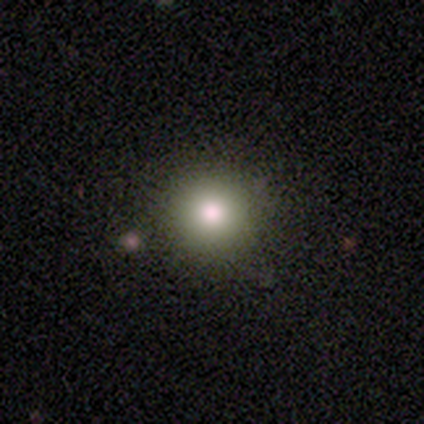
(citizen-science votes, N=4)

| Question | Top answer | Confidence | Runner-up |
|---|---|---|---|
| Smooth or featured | smooth | 75% | featured or disk (25%) |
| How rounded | round | 100% | — |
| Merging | none | 100% | — |